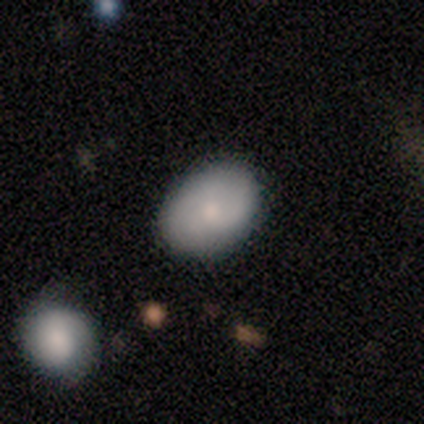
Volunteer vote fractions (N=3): Smooth or featured? smooth (67%)
How rounded? in between (100%)
Merging? none (100%)